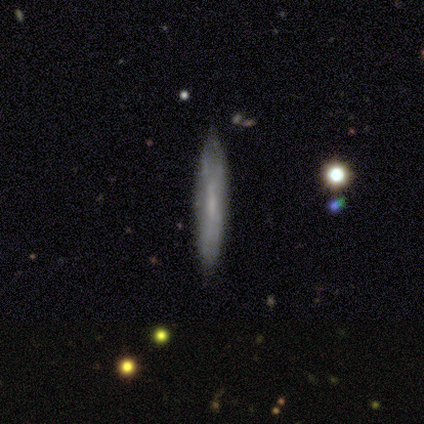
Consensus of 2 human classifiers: This is possibly a smooth galaxy (50%, tied with star or artifact). How rounded: clearly cigar-shaped (100%). Merging: clearly none (100%).